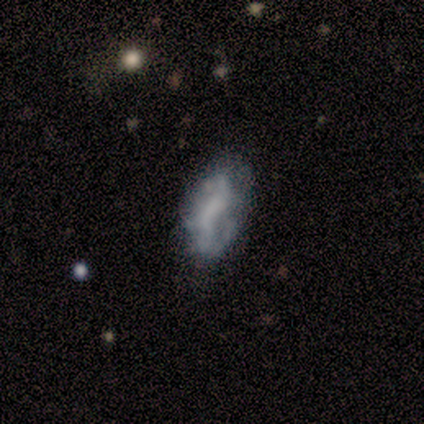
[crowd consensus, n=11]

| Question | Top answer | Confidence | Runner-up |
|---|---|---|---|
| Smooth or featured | featured or disk | 55% | smooth (27%) |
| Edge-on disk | no | 83% | yes (17%) |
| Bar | no | 60% | strong (20%) |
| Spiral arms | no | 60% | yes (40%) |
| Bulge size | none | 60% | moderate (40%) |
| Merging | none | 44% | tied: minor disturbance (44%) |